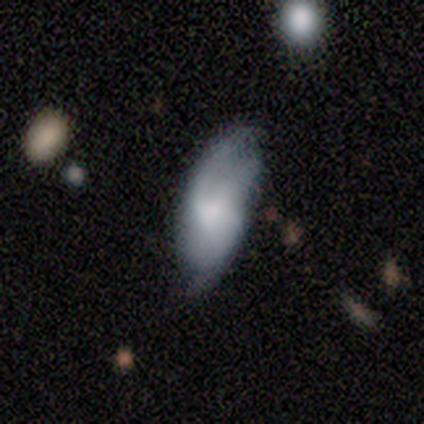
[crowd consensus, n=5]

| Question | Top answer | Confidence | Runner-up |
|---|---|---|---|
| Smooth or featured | smooth | 80% | featured or disk (20%) |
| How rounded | in between | 100% | — |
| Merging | none | 60% | minor disturbance (20%) |